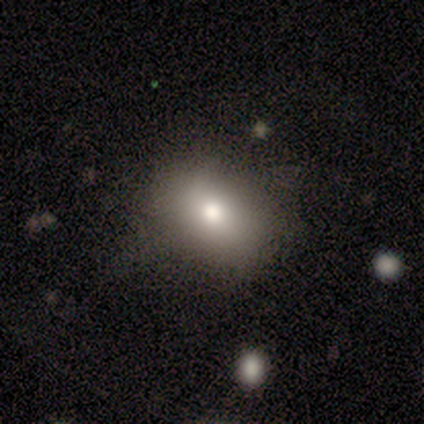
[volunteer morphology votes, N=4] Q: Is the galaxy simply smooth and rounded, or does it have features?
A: smooth — 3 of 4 (75%).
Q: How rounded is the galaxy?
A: in between — 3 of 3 (100%).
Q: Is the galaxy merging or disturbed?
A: none — 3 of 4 (75%).